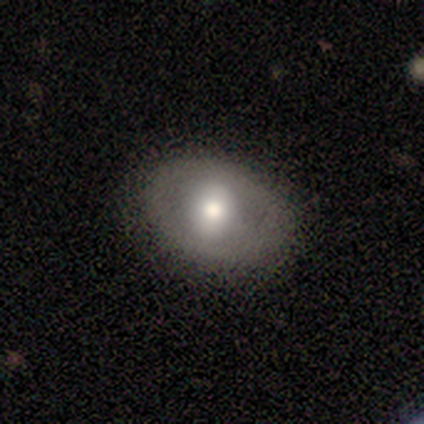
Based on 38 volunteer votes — Morphology: type=smooth (66%); roundness=in between (52%); merging=none (83%).